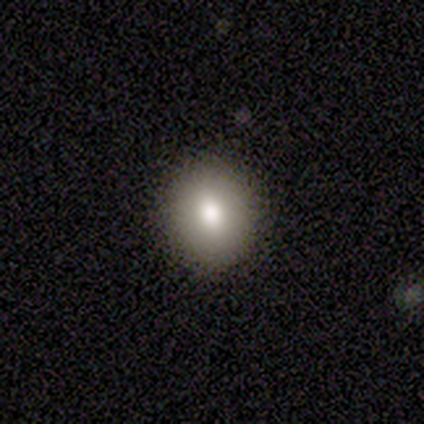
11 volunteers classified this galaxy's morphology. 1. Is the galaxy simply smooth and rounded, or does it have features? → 100% smooth, 0% featured or disk, 0% star or artifact.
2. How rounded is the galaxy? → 64% round, 36% in between, 0% cigar-shaped.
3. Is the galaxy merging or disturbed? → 100% none, 0% minor disturbance, 0% major disturbance, 0% merger.